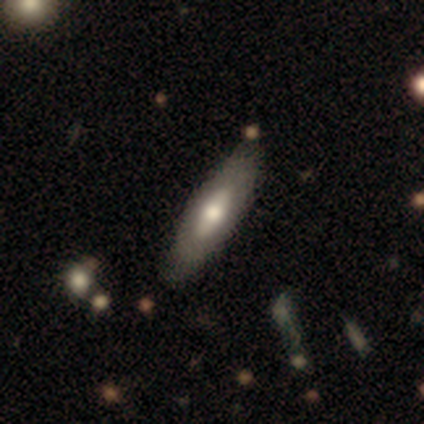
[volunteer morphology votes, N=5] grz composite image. It shows a smooth galaxy with no disk features (40%, tied with featured or disk) that is in between round and cigar-shaped (50%, tied with cigar-shaped). Merging: none (100%).